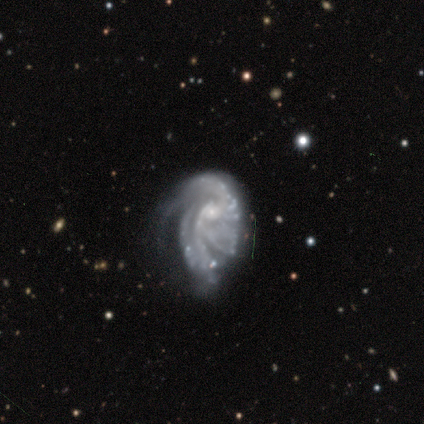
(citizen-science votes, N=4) Smooth or featured? featured or disk (75%)
Edge-on disk? no (100%)
Bar? strong (33%, tied with weak and no)
Spiral arms? yes (100%)
Spiral winding? tight (67%)
Spiral arm count? 3 (33%, tied with more than 4 and can't tell)
Bulge size? small (67%)
Merging? none (67%)